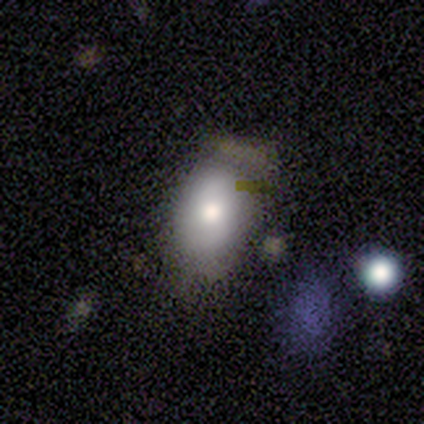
Q: Smooth or featured?
A: smooth (75%); runner-up: featured or disk (25%)
Q: How rounded?
A: in between (67%); runner-up: round (33%)
Q: Merging?
A: major disturbance (50%); runner-up: none (25%)